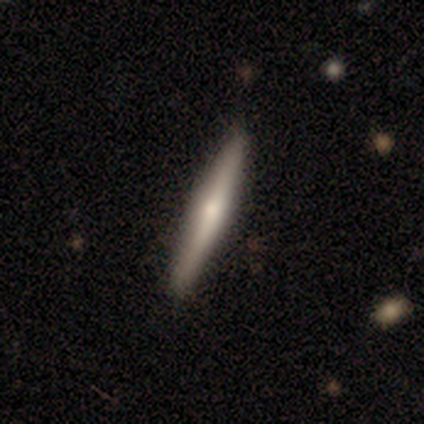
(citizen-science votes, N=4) A smooth galaxy with no disk features (75%) that is cigar-shaped (100%). Merging: none (100%).